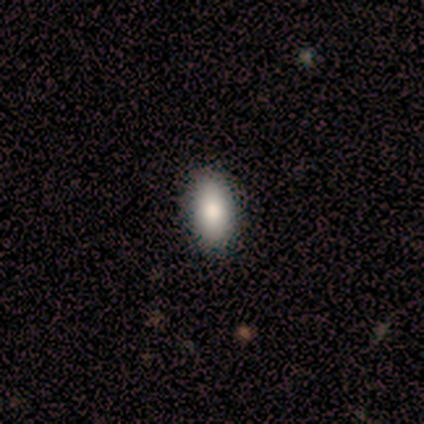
Morphology: type=smooth (100%); roundness=in between (100%); merging=none (80%).